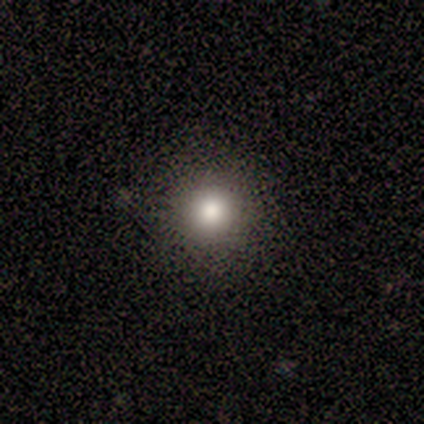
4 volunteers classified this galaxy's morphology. A smooth galaxy with no disk features (50%, tied with star or artifact) that is round (100%).

Vote fractions:
- Smooth or featured? smooth: 50% (tied) / star or artifact: 50% (tied) / featured or disk: 0%
- How rounded? round: 100% / in between: 0% / cigar-shaped: 0%
- Merging? none: 100% / minor disturbance: 0% / major disturbance: 0% / merger: 0%